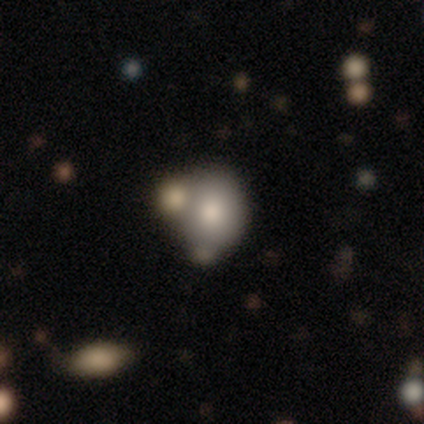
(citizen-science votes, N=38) smooth_or_featured: smooth (p=0.71) [alt: featured or disk p=0.26]
how_rounded: round (p=0.63) [alt: in between p=0.37]
merging: none (p=0.41) [alt: merger p=0.32]